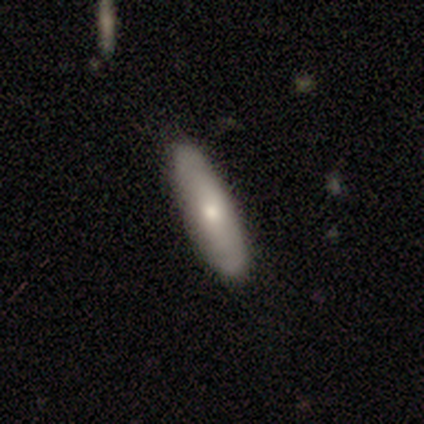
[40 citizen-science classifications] Overall: smooth (70%). How rounded: in between (50%; cigar-shaped 46%). Merging: none (89%).